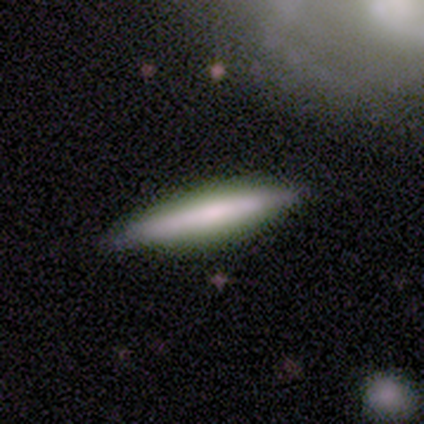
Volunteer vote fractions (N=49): Smooth or featured: smooth — 63% (featured or disk — 35%)
How rounded: cigar-shaped — 94% (in between — 6%)
Merging: none — 88% (minor disturbance — 6%)